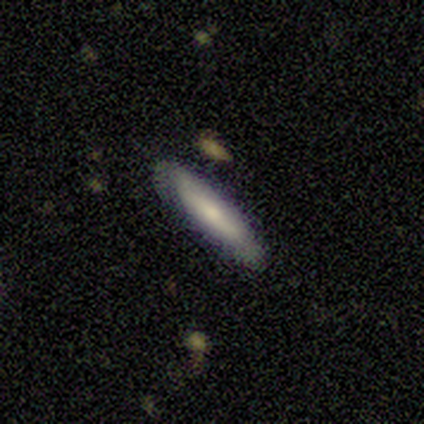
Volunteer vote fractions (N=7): Smooth or featured? smooth (57%)
How rounded? cigar-shaped (100%)
Merging? none (86%)